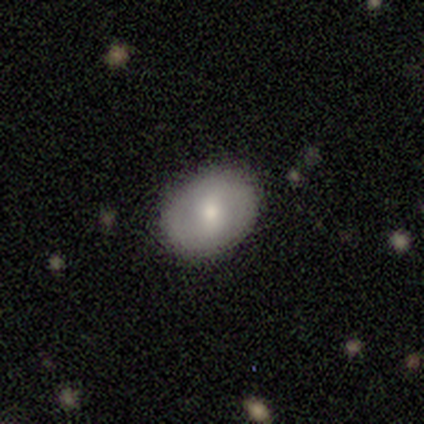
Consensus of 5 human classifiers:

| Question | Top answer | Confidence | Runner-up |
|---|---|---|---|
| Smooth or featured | smooth | 100% | — |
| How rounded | in between | 60% | round (40%) |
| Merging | none | 100% | — |